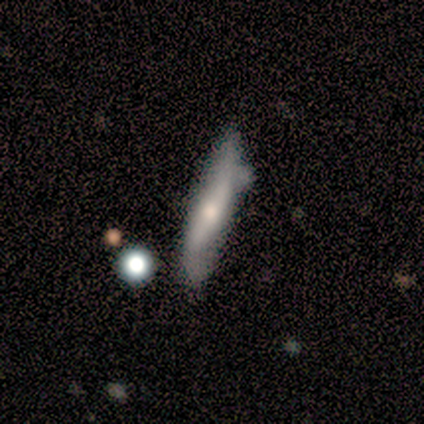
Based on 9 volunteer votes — Q: Smooth or featured?
A: featured or disk (56%); runner-up: smooth (33%)
Q: Edge-on disk?
A: yes (100%)
Q: Edge-on bulge?
A: rounded (100%)
Q: Merging?
A: minor disturbance (50%); runner-up: none (38%)